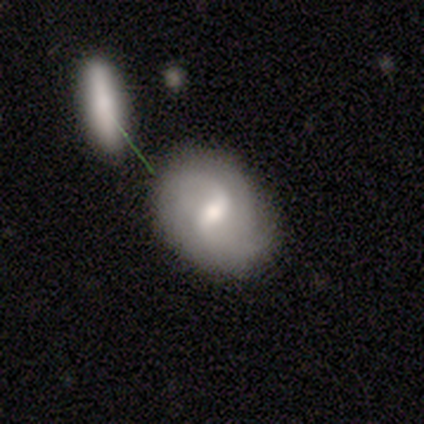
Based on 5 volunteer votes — Q: Smooth or featured?
A: featured or disk (60%); runner-up: smooth (40%)
Q: Edge-on disk?
A: no (100%)
Q: Bar?
A: weak (67%); runner-up: strong (33%)
Q: Spiral arms?
A: yes (100%)
Q: Spiral winding?
A: loose (67%); runner-up: medium (33%)
Q: Spiral arm count?
A: 2 (67%); runner-up: can't tell (33%)
Q: Bulge size?
A: large (33%); tied with: moderate (33%); small (33%)
Q: Merging?
A: none (60%); runner-up: minor disturbance (20%)